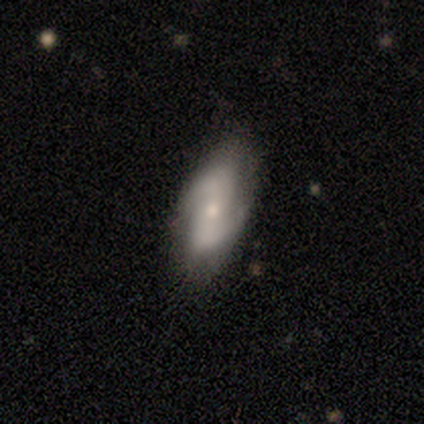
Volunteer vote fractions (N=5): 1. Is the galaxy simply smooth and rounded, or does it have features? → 100% featured or disk, 0% smooth, 0% star or artifact.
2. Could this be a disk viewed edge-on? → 100% no, 0% yes.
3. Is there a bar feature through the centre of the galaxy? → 60% no, 40% weak, 0% strong.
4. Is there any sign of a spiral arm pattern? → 100% yes, 0% no.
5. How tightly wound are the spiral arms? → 60% loose, 20% tight, 20% medium.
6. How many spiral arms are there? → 100% 2, 0% 1, 0% 3, 0% 4, 0% more than 4, 0% can't tell.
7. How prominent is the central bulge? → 60% moderate, 40% small, 0% dominant, 0% large, 0% none.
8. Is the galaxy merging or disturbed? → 80% none, 20% minor disturbance, 0% major disturbance, 0% merger.